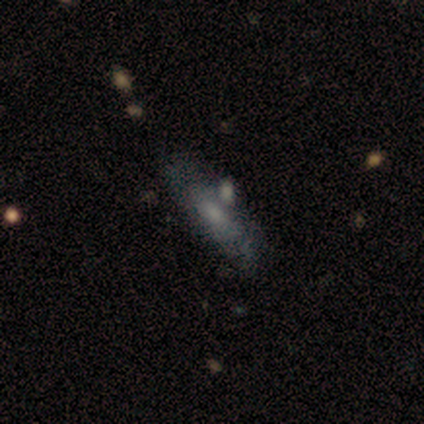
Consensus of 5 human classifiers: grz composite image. It shows a smooth galaxy with no disk features (40%, tied with star or artifact) that is in between round and cigar-shaped (50%, tied with cigar-shaped). Merging: merger (67%).